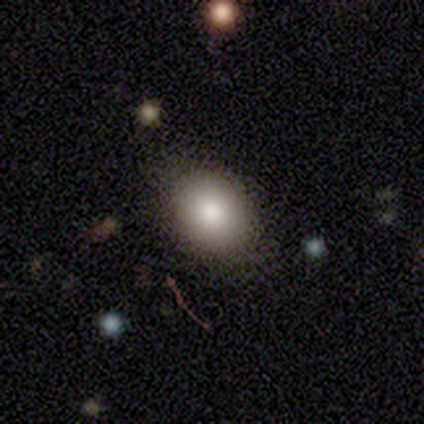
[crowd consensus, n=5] Overall: smooth (80%). How rounded: in between (75%). Merging: none (100%).